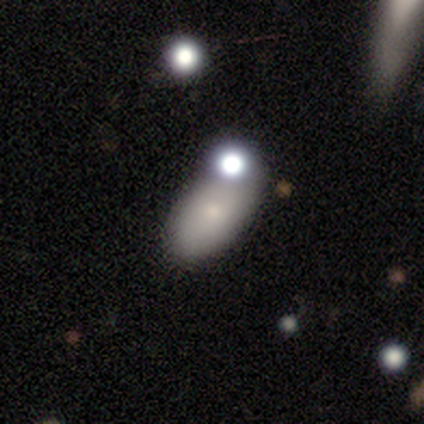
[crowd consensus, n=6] smooth 67%, featured or disk 33%, star or artifact 0%. Down the decision tree: how rounded — in between (100%); merging — none (67%).